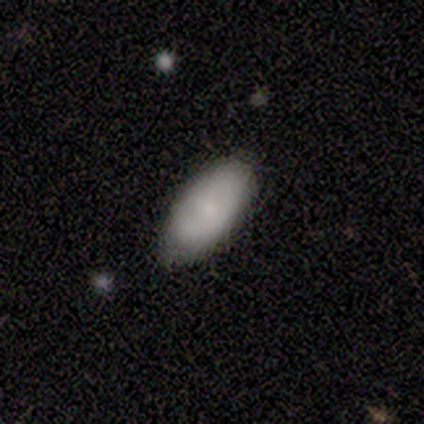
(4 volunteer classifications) This is clearly a smooth galaxy (100%). How rounded: likely in between (75%). Merging: possibly none (50%).